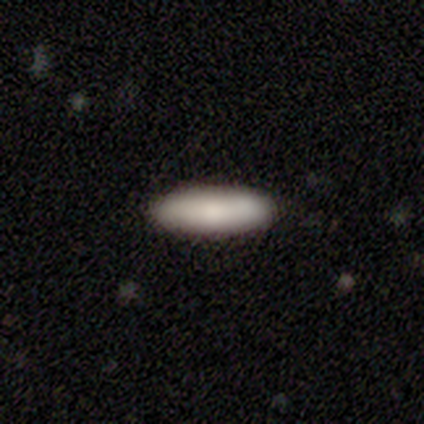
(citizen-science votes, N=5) Morphology: type=smooth (80%); roundness=cigar-shaped (75%); merging=none (100%).